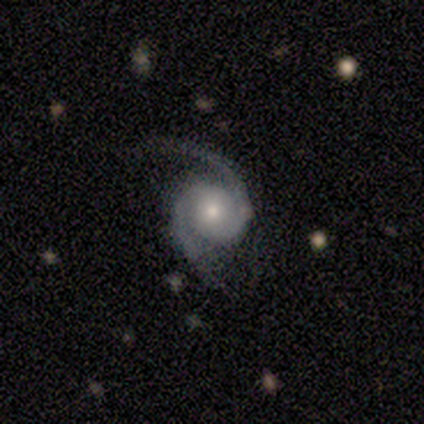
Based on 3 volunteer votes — A featured or disk galaxy (100%) with no bar (67%), 2 (100%) medium (67%) spiral arms (100%) and a small central bulge (67%). Merging: none (67%).